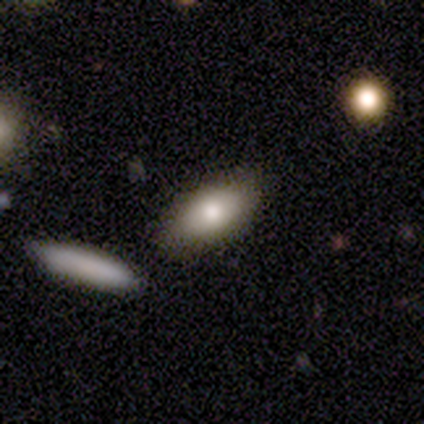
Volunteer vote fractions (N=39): This appears to be a smooth galaxy with no disk features (79%) that is in between round and cigar-shaped (94%). Merging: none (84%).